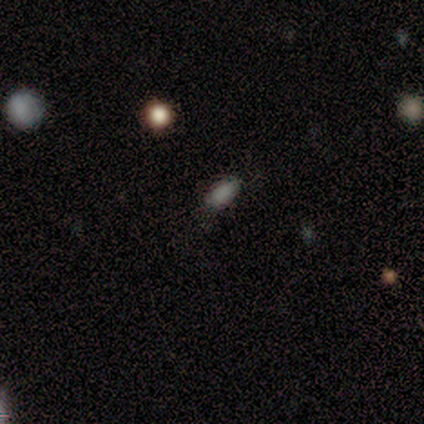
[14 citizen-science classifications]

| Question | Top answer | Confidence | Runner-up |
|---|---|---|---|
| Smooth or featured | smooth | 100% | — |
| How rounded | in between | 79% | round (14%) |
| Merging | none | 93% | minor disturbance (7%) |